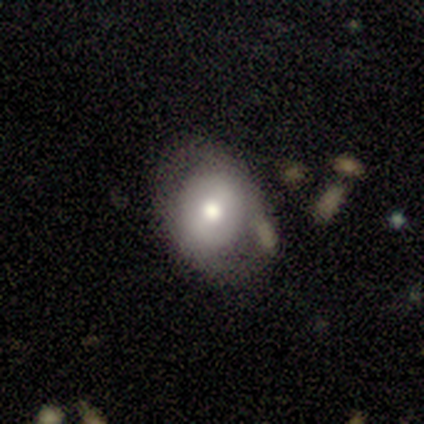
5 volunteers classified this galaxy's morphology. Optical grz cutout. It shows a featured or disk galaxy (80%) with a weak bar (50%, tied with no), no spiral arms (75%) and a moderate central bulge (100%). Merging: none (80%).